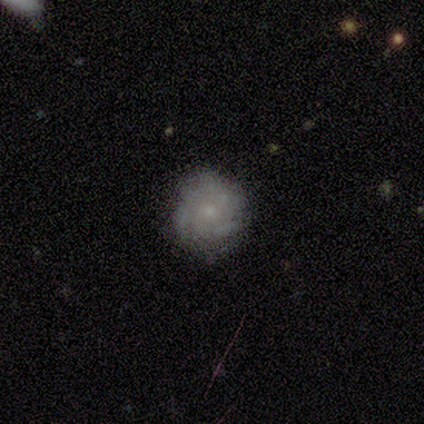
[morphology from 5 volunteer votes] This is likely a featured or disk galaxy (60%). It is clearly not viewed edge-on (100%). Bar: clearly no (100%). Spiral arm pattern: clearly yes (100%). Spiral arm count: marginally 2 (33%, tied with 3 and can't tell). Spiral winding: clearly tight (100%). Central bulge: likely small (67%). Merging: likely none (60%).